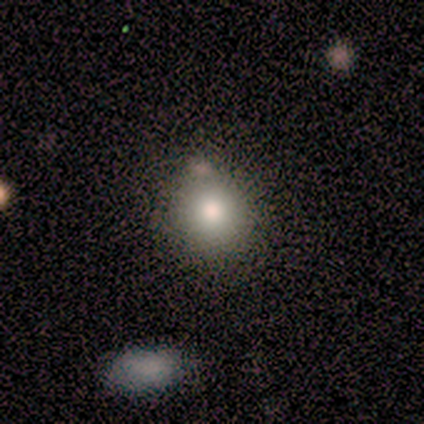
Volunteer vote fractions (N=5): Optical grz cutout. It shows a smooth galaxy with no disk features (80%) that is round (75%). Merging: none (75%).